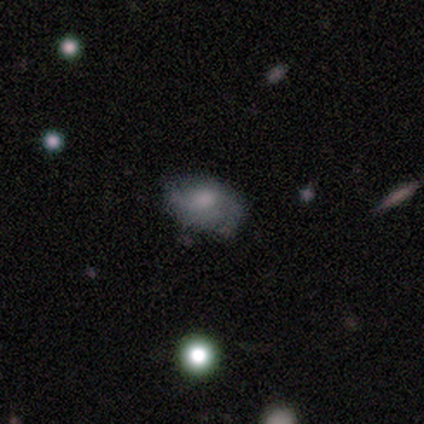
smooth 50% (tied), featured or disk 50% (tied), star or artifact 0%. Down the decision tree: how rounded — in between (100%); merging — none (100%).